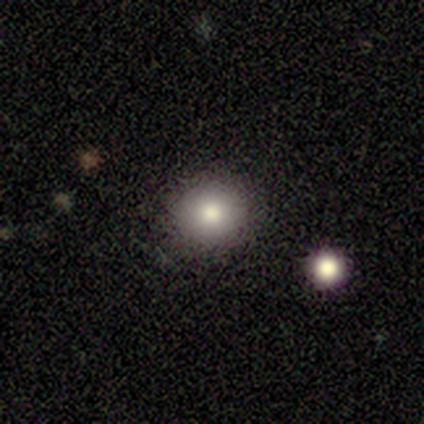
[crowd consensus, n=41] This is likely a smooth galaxy (76%). How rounded: clearly round (90%). Merging: clearly none (89%).